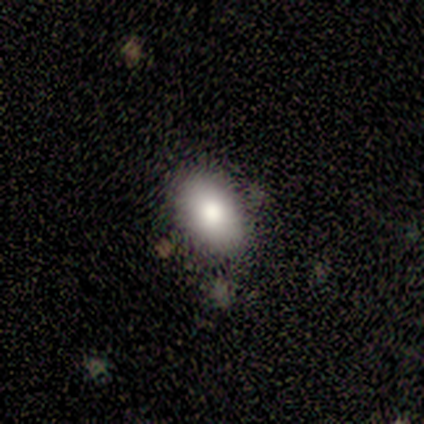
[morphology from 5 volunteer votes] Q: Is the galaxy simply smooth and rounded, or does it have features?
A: smooth — 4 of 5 (80%).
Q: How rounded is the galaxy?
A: in between — 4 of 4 (100%).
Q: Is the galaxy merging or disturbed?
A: none — 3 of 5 (60%).